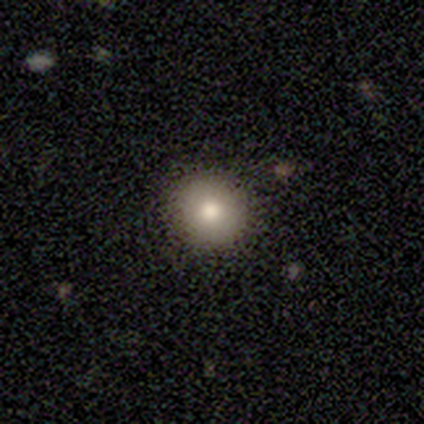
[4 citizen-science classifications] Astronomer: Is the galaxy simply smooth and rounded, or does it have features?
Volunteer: smooth — 75%.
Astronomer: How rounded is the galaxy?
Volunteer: round — 100%.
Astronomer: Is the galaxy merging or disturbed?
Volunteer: none — 100%.